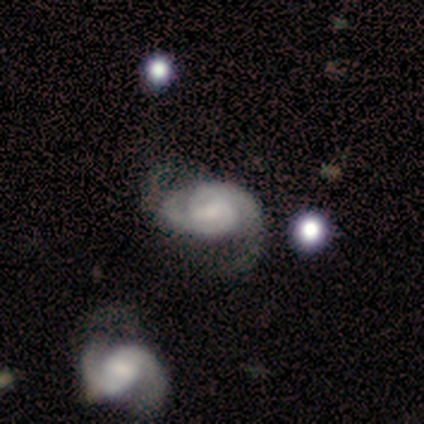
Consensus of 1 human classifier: This appears to be a featured or disk galaxy (100%) with no bar (100%), 2 (100%) medium (100%) spiral arms (100%) and a moderate central bulge (100%). Merging: none (100%).